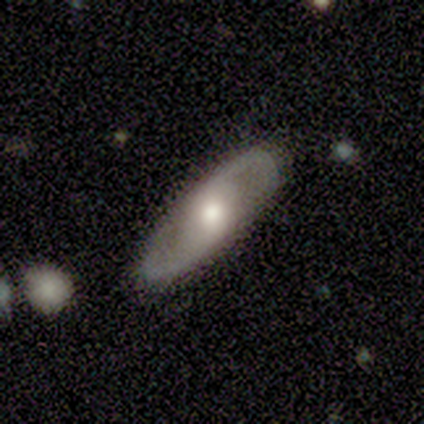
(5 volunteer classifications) smooth-or-featured: featured or disk: 80% | smooth: 20% | star or artifact: 0%
  disk-edge-on: no: 100% | yes: 0%
    bar: weak: 50% | strong: 25% | no: 25%
    has-spiral-arms: yes: 50% (tied) | no: 50% (tied)
      spiral-winding: medium: 100% | tight: 0% | loose: 0%
      spiral-arm-count: 2: 100% | 1: 0% | 3: 0% | 4: 0% | more than 4: 0% | can't tell: 0%
    bulge-size: moderate: 75% | small: 25% | dominant: 0% | large: 0% | none: 0%
  merging: none: 80% | minor disturbance: 20% | major disturbance: 0% | merger: 0%